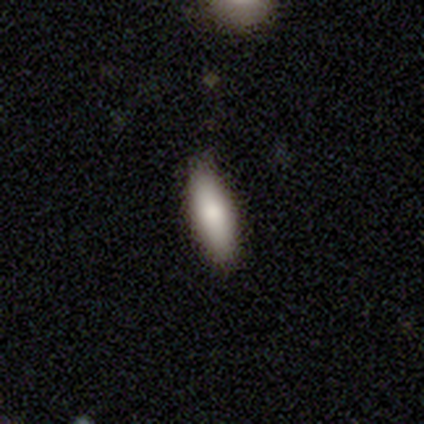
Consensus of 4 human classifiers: Volunteers were most divided on "smooth or featured": smooth: 50%, featured or disk: 25%, star or artifact: 25%. More confident: how rounded — cigar-shaped (100%); merging — none (100%).